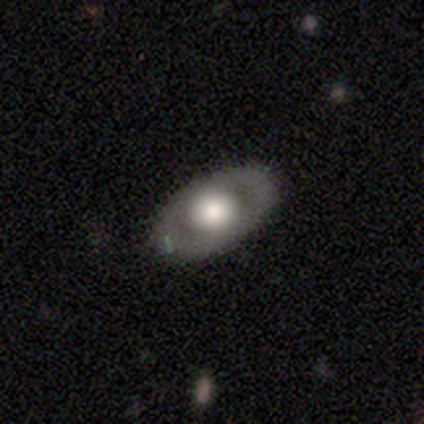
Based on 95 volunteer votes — featured or disk 62%, smooth 35%, star or artifact 3%. Down the decision tree: edge-on disk — no (68%); bar — no (90%); spiral arms — no (80%); bulge size — large (68%); merging — none (82%).